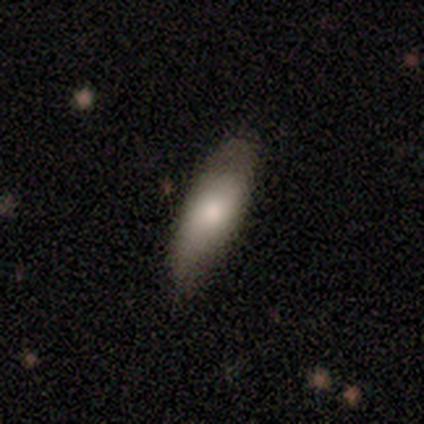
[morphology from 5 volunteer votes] A smooth galaxy with no disk features (80%) that is cigar-shaped (75%). Merging: none (80%).